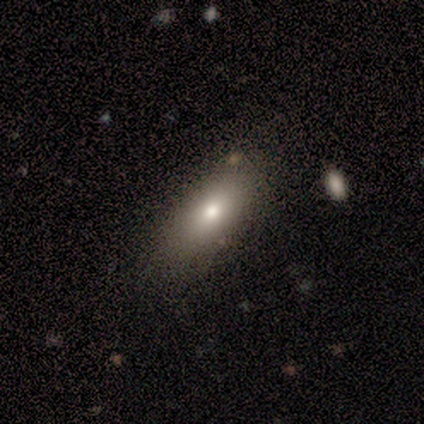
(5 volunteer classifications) smooth_or_featured: smooth (p=0.80) [alt: star or artifact p=0.20]
how_rounded: in between (p=0.75) [alt: cigar-shaped p=0.25]
merging: none (p=1.00)